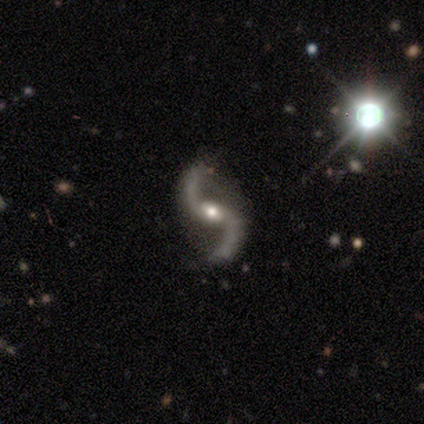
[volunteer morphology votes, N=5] A featured or disk galaxy (100%) with a weak bar (80%), 2 (80%) loose (100%) spiral arms (100%) and a moderate central bulge (80%). Merging: none (80%).